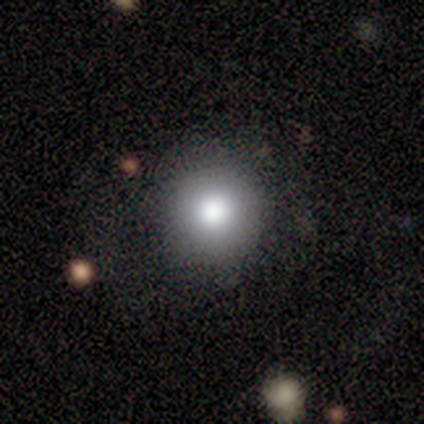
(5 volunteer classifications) Smooth or featured? 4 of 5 (80%) said smooth. How rounded? 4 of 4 (100%) said round. Merging? 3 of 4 (75%) said none.